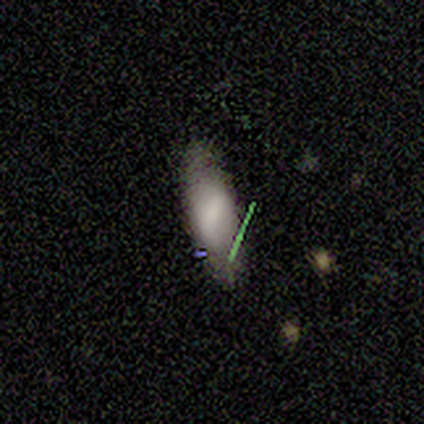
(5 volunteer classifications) Volunteers were most divided on "smooth or featured" (2-way tie): smooth: 40%, featured or disk: 40%, star or artifact: 20%; "merging" (2-way tie): none: 50%, minor disturbance: 50%, major disturbance: 0%, merger: 0%. More confident: how rounded — in between (100%).